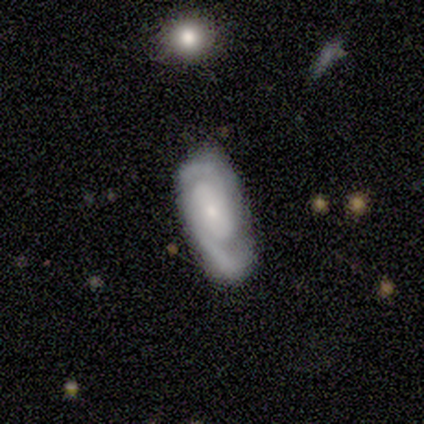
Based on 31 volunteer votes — A featured or disk galaxy (74%) with no bar (74%), 2 (86%) tight (68%) spiral arms (96%) and a small central bulge (87%).

Vote fractions:
- Smooth or featured? featured or disk: 74% / smooth: 23% / star or artifact: 3%
- Edge-on disk? no: 100% / yes: 0%
- Bar? no: 74% / weak: 17% / strong: 9%
- Spiral arms? yes: 96% / no: 4%
- Spiral winding? tight: 68% / medium: 32% / loose: 0%
- Spiral arm count? 2: 86% / 3: 9% / can't tell: 5% / 1: 0% / 4: 0% / more than 4: 0%
- Bulge size? small: 87% / moderate: 9% / none: 4% / dominant: 0% / large: 0%
- Merging? none: 53% / minor disturbance: 47% / major disturbance: 0% / merger: 0%